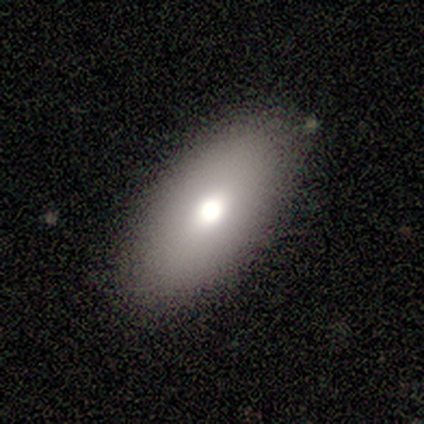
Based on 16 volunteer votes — This is likely a smooth galaxy (69%). How rounded: clearly in between (82%). Merging: likely none (77%).